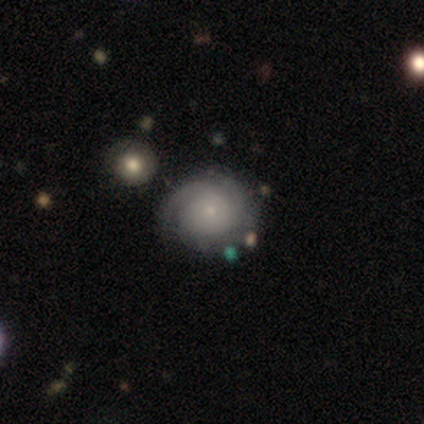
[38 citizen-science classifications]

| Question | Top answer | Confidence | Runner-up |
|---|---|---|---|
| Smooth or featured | featured or disk | 66% | smooth (29%) |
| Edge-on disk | no | 100% | — |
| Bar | no | 84% | weak (16%) |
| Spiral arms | yes | 92% | no (8%) |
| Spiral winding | tight | 52% | medium (39%) |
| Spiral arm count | can't tell | 48% | 3 (17%) |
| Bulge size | small | 92% | dominant (4%) |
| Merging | none | 78% | minor disturbance (8%) |